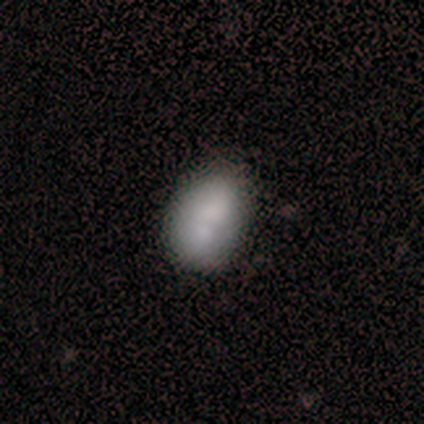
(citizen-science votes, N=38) A smooth galaxy with no disk features (71%) that is in between round and cigar-shaped (78%). Merging: none (44%).